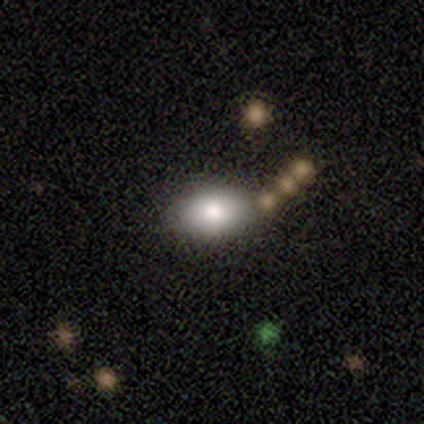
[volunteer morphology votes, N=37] Volunteers were most divided on "how rounded": in between: 80%, round: 20%, cigar-shaped: 0%. More confident: smooth or featured — smooth (81%); merging — none (76%).